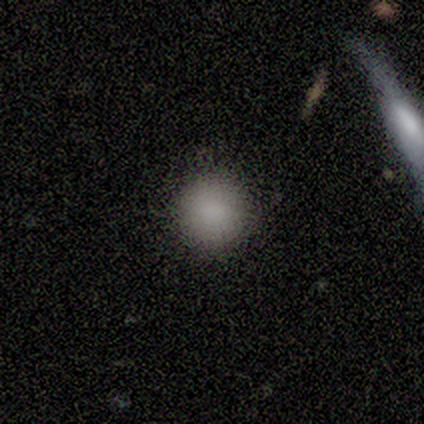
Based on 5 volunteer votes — A smooth galaxy with no disk features (80%) that is round (100%). Merging: none (100%).